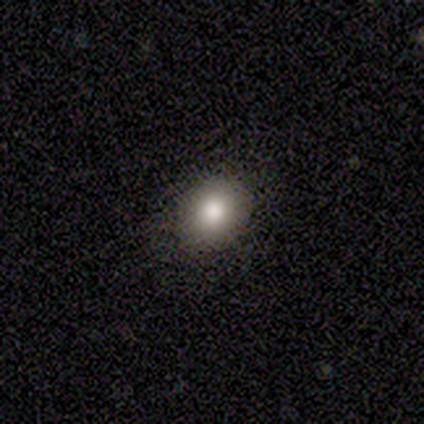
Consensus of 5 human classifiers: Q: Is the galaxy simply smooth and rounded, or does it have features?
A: smooth — 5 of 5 (100%).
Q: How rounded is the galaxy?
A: round — 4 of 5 (80%).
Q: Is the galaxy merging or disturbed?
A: none — 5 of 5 (100%).